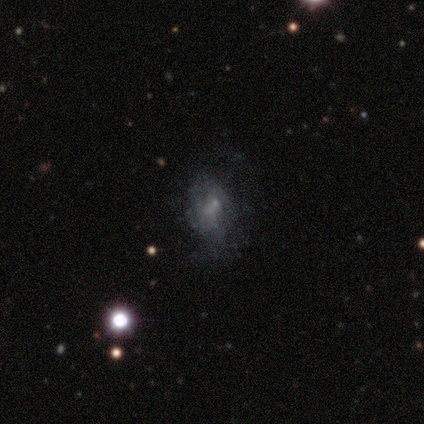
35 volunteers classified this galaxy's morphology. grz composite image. It shows a smooth galaxy with no disk features (49%) that is in between round and cigar-shaped (65%). Merging: none (39%).